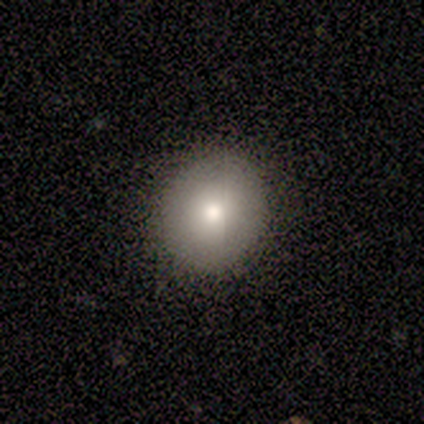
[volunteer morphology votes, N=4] Smooth or featured?
  - smooth: 50% *
  - featured or disk: 25%
  - star or artifact: 25%
How rounded?
  - round: 50% * (tied)
  - in between: 50% * (tied)
  - cigar-shaped: 0%
Merging?
  - none: 100% *
  - minor disturbance: 0%
  - major disturbance: 0%
  - merger: 0%